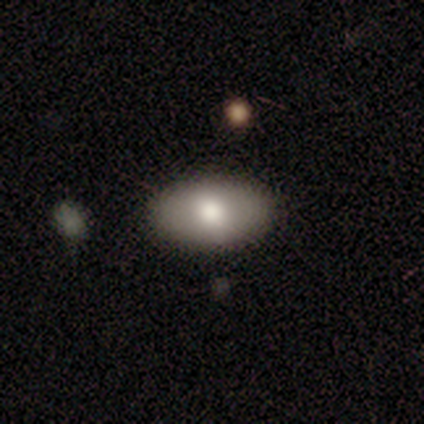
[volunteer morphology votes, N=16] Overall: smooth (75%). How rounded: in between (92%). Merging: none (88%).